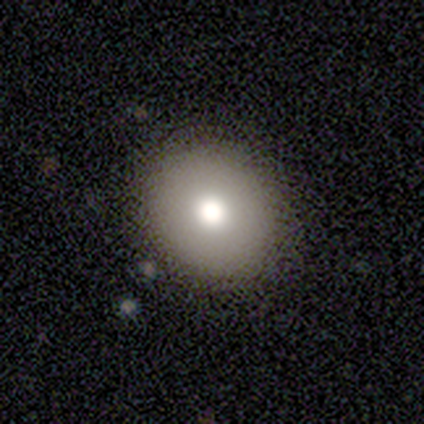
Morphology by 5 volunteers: Smooth or featured? 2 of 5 (40%, tied with featured or disk) said smooth. How rounded? 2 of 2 (100%) said round. Merging? 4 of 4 (100%) said none.